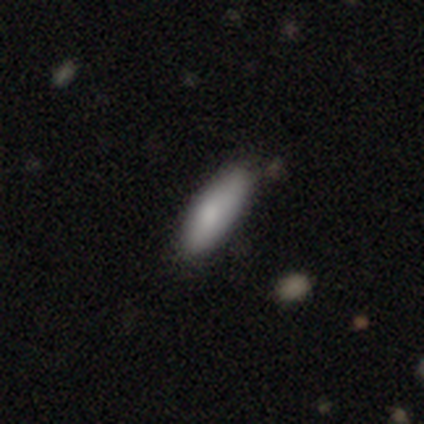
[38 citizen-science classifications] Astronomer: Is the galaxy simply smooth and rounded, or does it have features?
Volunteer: smooth — 74%.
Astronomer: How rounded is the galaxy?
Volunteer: in between — 61% (runner-up: cigar-shaped, 39%).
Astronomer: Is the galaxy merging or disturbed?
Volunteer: none — 79%.